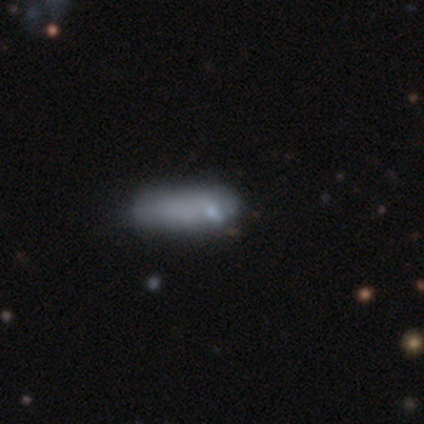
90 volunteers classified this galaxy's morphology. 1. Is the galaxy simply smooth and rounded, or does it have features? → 78% smooth, 13% featured or disk, 9% star or artifact.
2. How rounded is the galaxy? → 60% cigar-shaped, 40% in between, 0% round.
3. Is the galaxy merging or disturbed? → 59% none, 26% minor disturbance, 12% major disturbance, 4% merger.